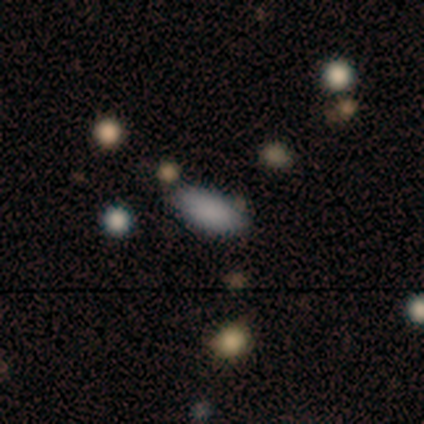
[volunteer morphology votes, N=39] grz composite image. It shows a smooth galaxy with no disk features (79%) that is in between round and cigar-shaped (84%). Merging: none (68%).